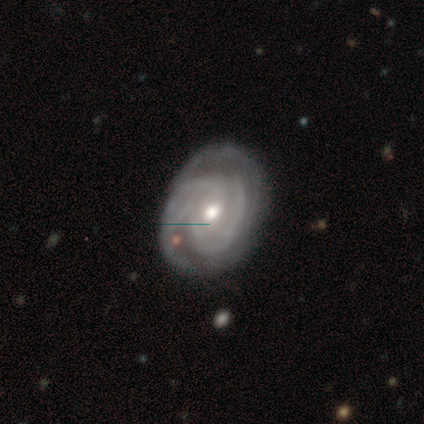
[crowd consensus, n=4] Smooth or featured? featured or disk (100%)
Edge-on disk? no (100%)
Bar? no (100%)
Spiral arms? yes (100%)
Spiral winding? tight (100%)
Spiral arm count? 2 (75%)
Bulge size? moderate (50%, tied with small)
Merging? none (100%)